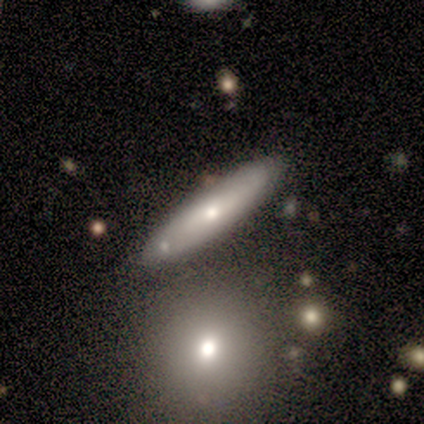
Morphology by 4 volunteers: Smooth or featured?
  - smooth: 50% * (tied)
  - featured or disk: 50% * (tied)
  - star or artifact: 0%
How rounded?
  - cigar-shaped: 100% *
  - round: 0%
  - in between: 0%
Merging?
  - none: 50% * (tied)
  - minor disturbance: 50% * (tied)
  - major disturbance: 0%
  - merger: 0%